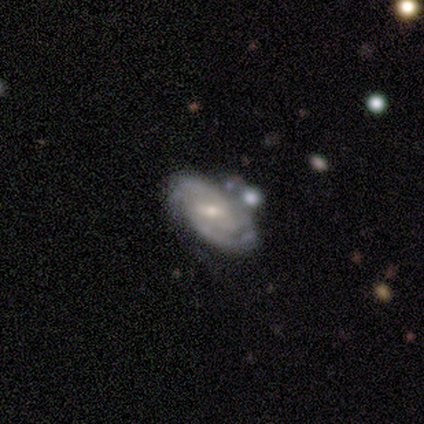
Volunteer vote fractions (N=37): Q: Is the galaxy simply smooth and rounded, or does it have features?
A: featured or disk — 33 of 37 (89%).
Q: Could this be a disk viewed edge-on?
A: no — 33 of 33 (100%).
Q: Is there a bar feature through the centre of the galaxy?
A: weak — 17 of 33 (52%).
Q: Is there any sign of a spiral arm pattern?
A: yes — 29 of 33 (88%).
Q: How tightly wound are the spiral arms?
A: tight — 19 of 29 (66%).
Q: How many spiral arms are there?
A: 2 — 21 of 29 (72%).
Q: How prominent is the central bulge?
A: moderate — 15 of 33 (45%, tied with small).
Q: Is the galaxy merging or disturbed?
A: none — 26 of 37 (70%).